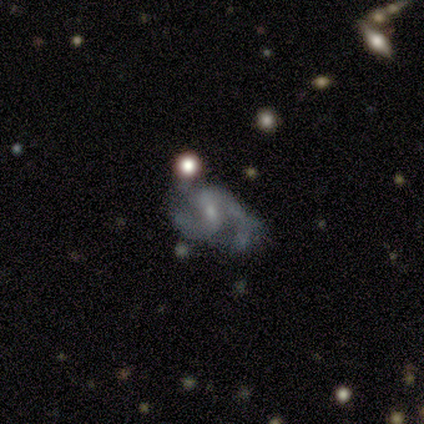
Smooth or featured? 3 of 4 (75%) said featured or disk. Edge-on disk? 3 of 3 (100%) said no. Bar? 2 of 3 (67%) said weak. Spiral arms? 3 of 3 (100%) said yes. Spiral winding? 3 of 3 (100%) said medium. Spiral arm count? 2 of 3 (67%) said 2. Bulge size? 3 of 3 (100%) said small. Merging? 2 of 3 (67%) said none.